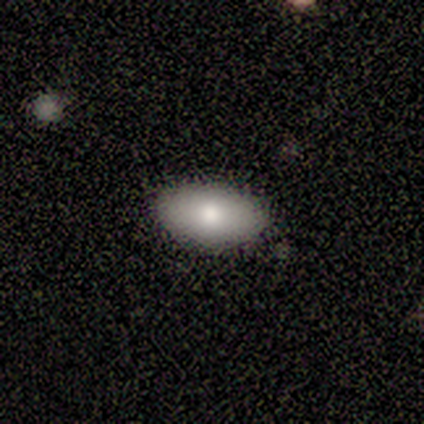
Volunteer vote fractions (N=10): Morphology: type=smooth (80%); roundness=in between (88%); merging=none (90%).